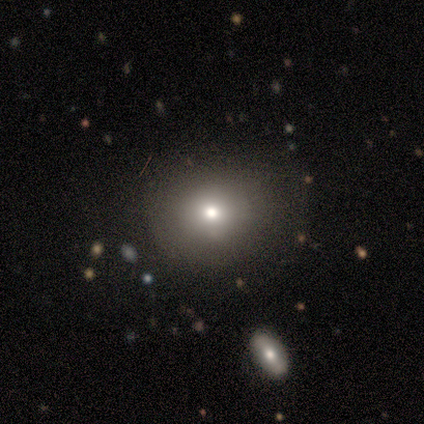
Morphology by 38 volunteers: Smooth or featured? 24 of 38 (63%) said smooth. How rounded? 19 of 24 (79%) said round. Merging? 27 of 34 (79%) said none.